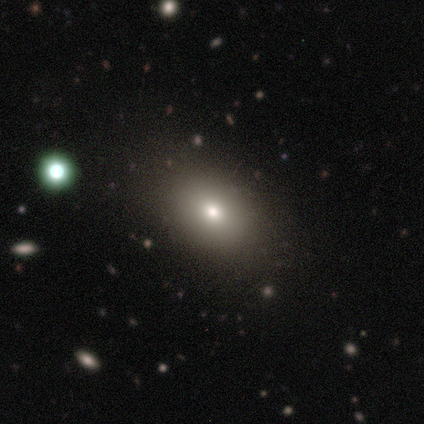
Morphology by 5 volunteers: Volunteers were most divided on "smooth or featured": smooth: 80%, featured or disk: 20%, star or artifact: 0%. More confident: how rounded — in between (100%); merging — none (100%).